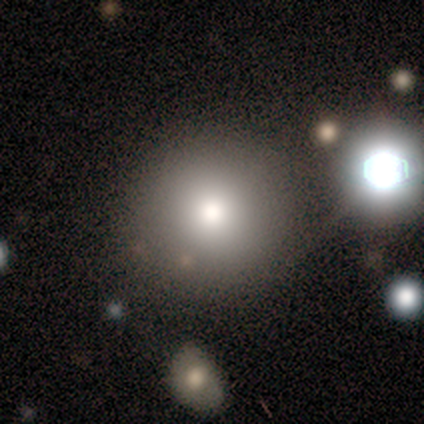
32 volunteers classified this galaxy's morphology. Overall: smooth (78%). How rounded: round (96%). Merging: merger (32%; none 25%).